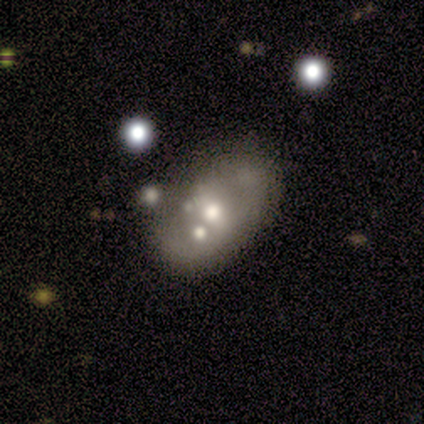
A smooth galaxy with no disk features (71%) that is in between round and cigar-shaped (80%).

Vote fractions:
- Smooth or featured? smooth: 71% / featured or disk: 29% / star or artifact: 0%
- How rounded? in between: 80% / round: 20% / cigar-shaped: 0%
- Merging? none: 43% / merger: 29% / minor disturbance: 14% / major disturbance: 14%